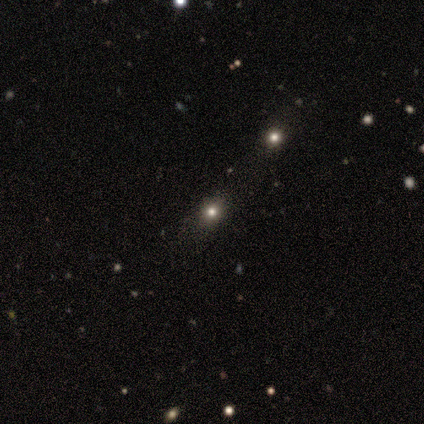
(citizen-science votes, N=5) Volunteers were most divided on "smooth or featured": smooth: 60%, star or artifact: 40%, featured or disk: 0%. More confident: how rounded — round (100%); merging — none (67%).